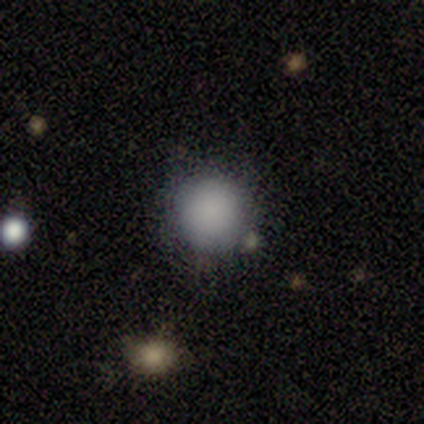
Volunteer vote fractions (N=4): smooth 100%, featured or disk 0%, star or artifact 0%. Down the decision tree: how rounded — round (100%); merging — none (75%).